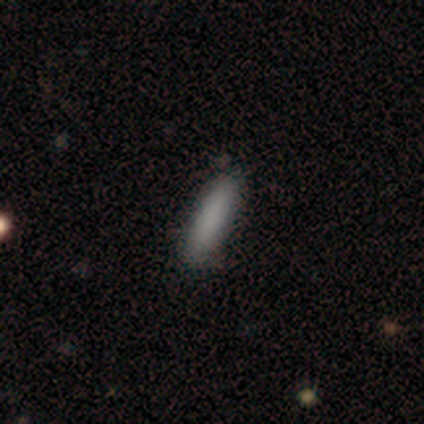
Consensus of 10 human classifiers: Smooth or featured? smooth (70%)
How rounded? cigar-shaped (57%)
Merging? none (88%)